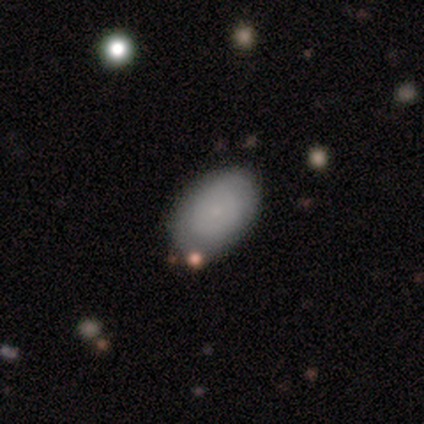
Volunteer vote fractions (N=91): Q: Smooth or featured?
A: smooth (75%); runner-up: featured or disk (22%)
Q: How rounded?
A: in between (88%); runner-up: round (10%)
Q: Merging?
A: none (72%); runner-up: minor disturbance (23%)